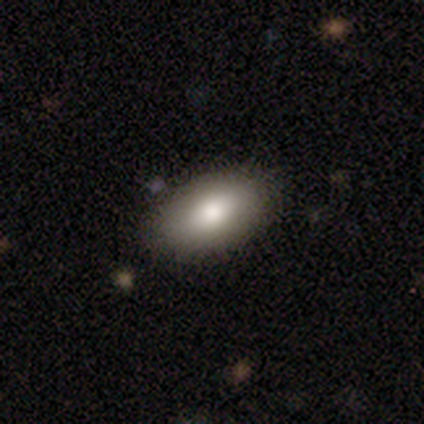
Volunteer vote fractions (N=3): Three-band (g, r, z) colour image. It shows a smooth galaxy with no disk features (100%) that is in between round and cigar-shaped (100%). Merging: none (100%).